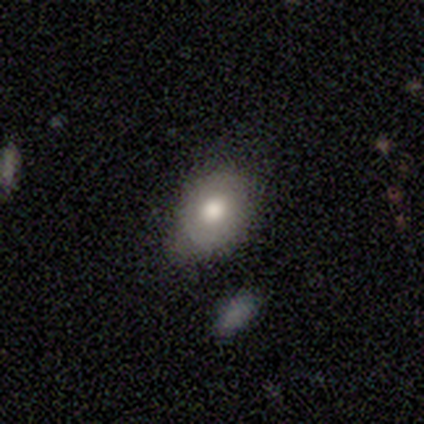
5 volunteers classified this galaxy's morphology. Smooth or featured? 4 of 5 (80%) said smooth. How rounded? 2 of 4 (50%, tied with in between) said round. Merging? 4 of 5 (80%) said none.